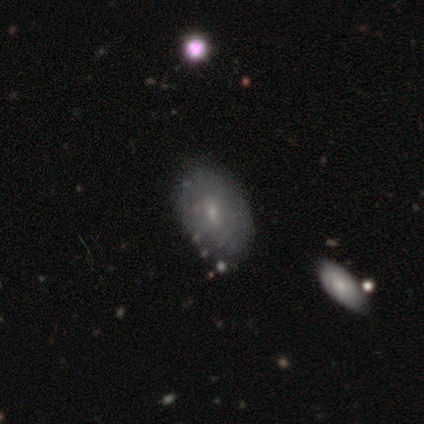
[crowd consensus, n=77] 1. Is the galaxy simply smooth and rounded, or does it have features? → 51% smooth, 44% featured or disk, 5% star or artifact.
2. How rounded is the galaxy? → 77% in between, 23% round, 0% cigar-shaped.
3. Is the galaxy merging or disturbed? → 40% none, 8% minor disturbance, 5% merger, 1% major disturbance.